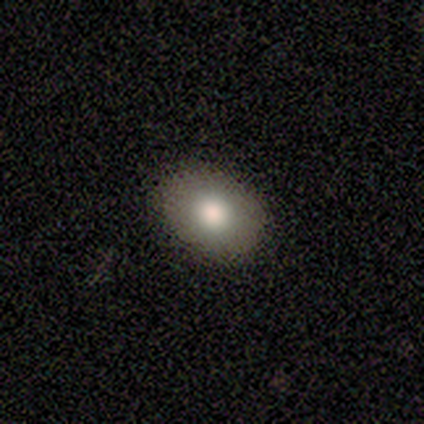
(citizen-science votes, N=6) Smooth or featured?
  - smooth: 100% *
  - featured or disk: 0%
  - star or artifact: 0%
How rounded?
  - in between: 83% *
  - round: 17%
  - cigar-shaped: 0%
Merging?
  - none: 50% * (tied)
  - minor disturbance: 50% * (tied)
  - major disturbance: 0%
  - merger: 0%